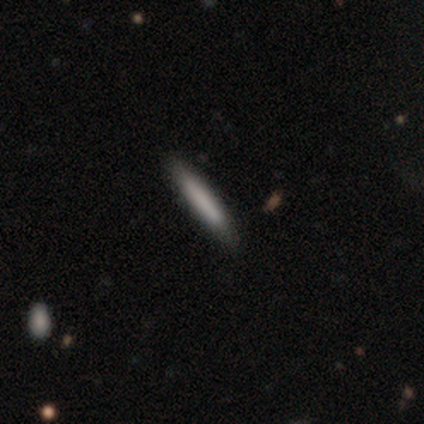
Overall: smooth (100%). How rounded: cigar-shaped (100%). Merging: none (100%).